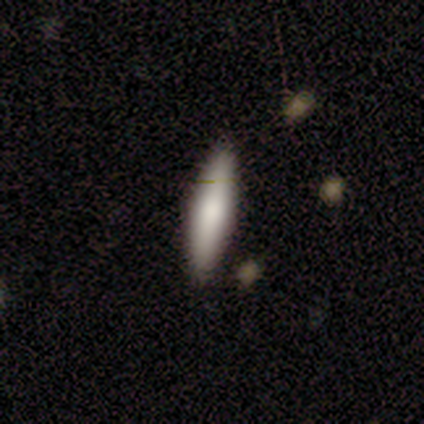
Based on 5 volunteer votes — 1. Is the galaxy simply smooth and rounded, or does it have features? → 80% smooth, 20% featured or disk, 0% star or artifact.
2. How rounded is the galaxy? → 100% cigar-shaped, 0% round, 0% in between.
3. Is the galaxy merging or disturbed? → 100% none, 0% minor disturbance, 0% major disturbance, 0% merger.